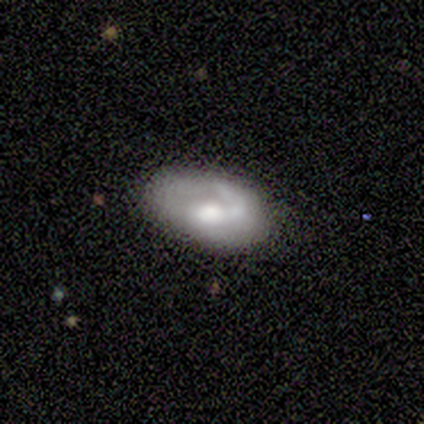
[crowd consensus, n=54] A featured or disk galaxy (67%) with no bar (67%), 1 (74%) tight (43%) spiral arms (64%) and a moderate central bulge (53%). Merging: none (63%).